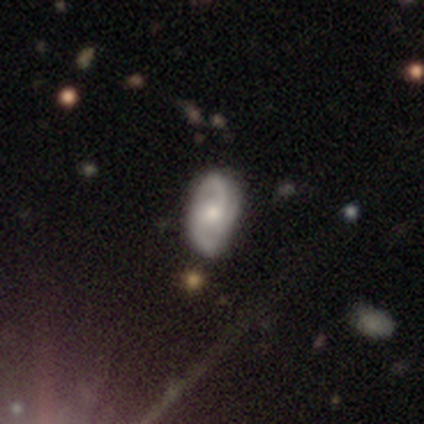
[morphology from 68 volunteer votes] type=featured or disk (66%); edge-on=no (93%); bar=no (67%); spiral arms=yes (100%); winding=medium (62%); arm count=2 (86%); bulge=moderate (60%); merging=none (67%).